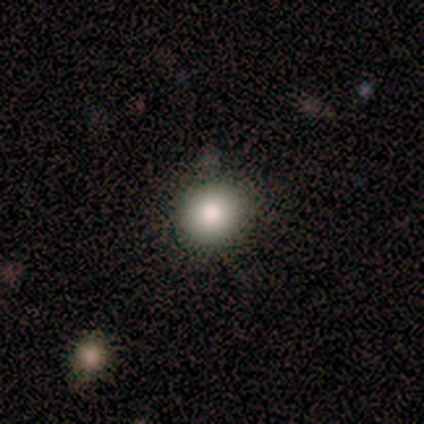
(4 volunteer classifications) Volunteers were most divided on "smooth or featured": smooth: 50%, featured or disk: 25%, star or artifact: 25%. More confident: how rounded — round (100%); merging — none (100%).